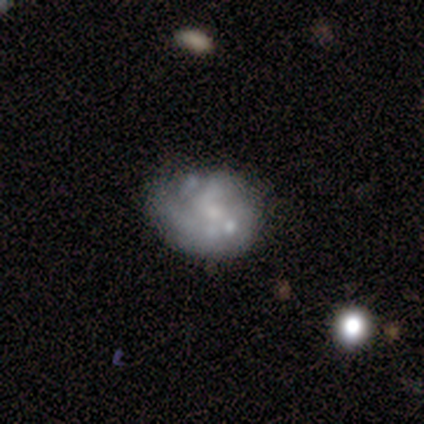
This appears to be a featured or disk galaxy (80%) with no bar (100%), no spiral arms (75%) and a small central bulge (50%). Merging: minor disturbance (60%).